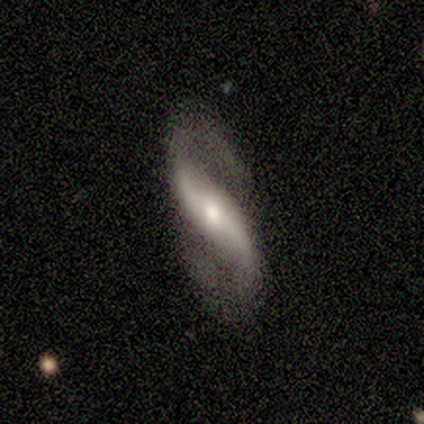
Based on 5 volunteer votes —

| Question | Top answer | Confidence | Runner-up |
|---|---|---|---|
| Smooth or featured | featured or disk | 80% | star or artifact (20%) |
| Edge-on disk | no | 100% | — |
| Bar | strong | 75% | no (25%) |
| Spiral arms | yes | 100% | — |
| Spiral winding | loose | 75% | tight (25%) |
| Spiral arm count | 2 | 100% | — |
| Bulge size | moderate | 75% | small (25%) |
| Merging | none | 75% | minor disturbance (25%) |